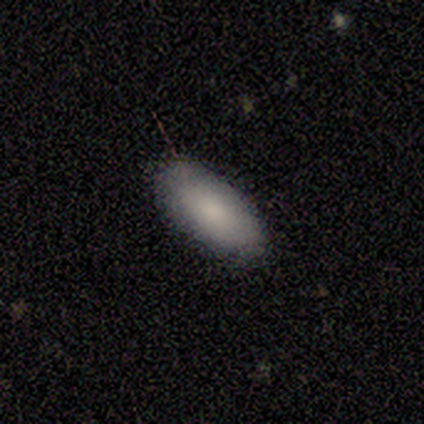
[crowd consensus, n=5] smooth 100%, featured or disk 0%, star or artifact 0%. Down the decision tree: how rounded — in between (100%); merging — none (100%).